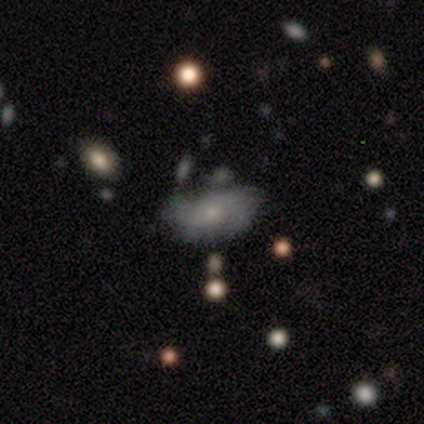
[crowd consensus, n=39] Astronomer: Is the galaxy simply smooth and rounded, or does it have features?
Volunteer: featured or disk — 54% (runner-up: smooth, 36%).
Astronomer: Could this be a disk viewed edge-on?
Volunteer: no — 100%.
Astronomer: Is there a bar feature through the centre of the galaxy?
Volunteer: no — 76%.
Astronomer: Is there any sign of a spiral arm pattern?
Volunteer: yes — 62% (runner-up: no, 38%).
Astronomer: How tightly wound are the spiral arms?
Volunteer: medium — 54% (runner-up: loose, 31%).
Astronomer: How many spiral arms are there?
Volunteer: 2 — 38% (runner-up: can't tell, 31%).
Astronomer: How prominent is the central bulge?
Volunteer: small — 48% (runner-up: moderate, 43%).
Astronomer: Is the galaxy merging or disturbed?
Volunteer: none — 29% (runner-up: merger, 20%).